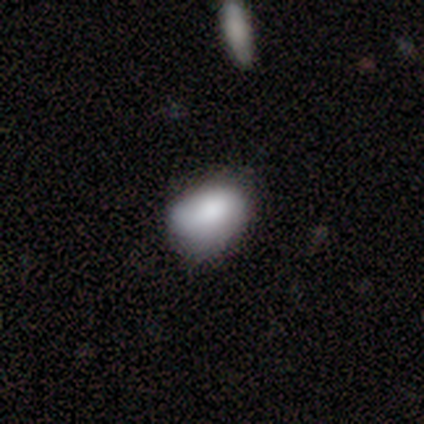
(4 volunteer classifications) Overall: smooth (75%). How rounded: in between (67%; round 33%). Merging: major disturbance (50%; none 25%).